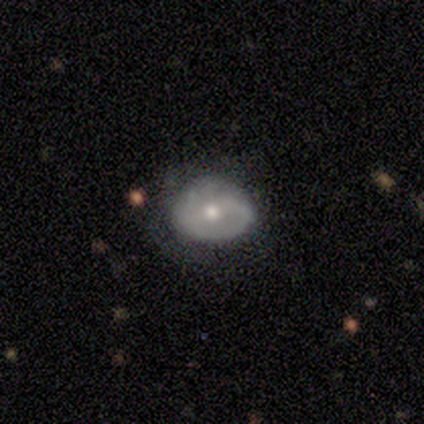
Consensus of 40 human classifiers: smooth_or_featured: smooth (p=0.57) [alt: featured or disk p=0.40]
how_rounded: round (p=0.61) [alt: in between p=0.39]
merging: none (p=0.59) [alt: minor disturbance p=0.31]